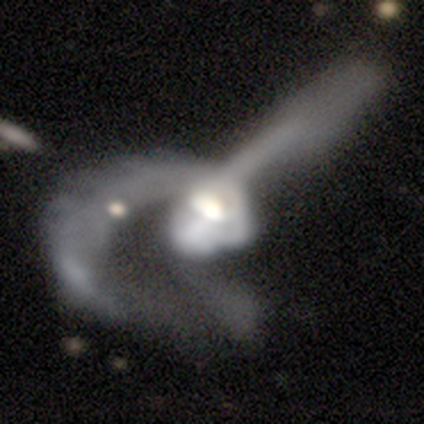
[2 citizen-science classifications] This appears to be a smooth galaxy with no disk features (50%, tied with featured or disk) that is in between round and cigar-shaped (100%). Merging: major disturbance (50%, tied with merger).